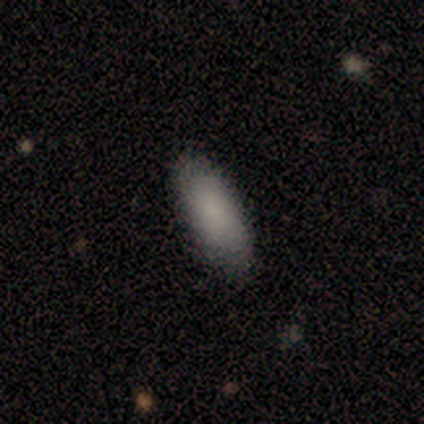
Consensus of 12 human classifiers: Overall: smooth (83%). How rounded: in between (70%; cigar-shaped 30%). Merging: none (92%).